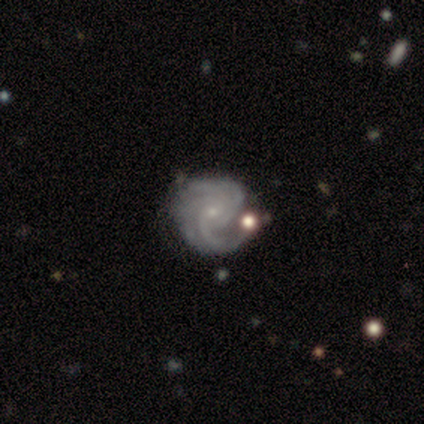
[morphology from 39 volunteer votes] Smooth or featured? featured or disk (87%)
Edge-on disk? no (100%)
Bar? no (71%)
Spiral arms? yes (100%)
Spiral winding? medium (56%)
Spiral arm count? 4 (26%)
Bulge size? small (82%)
Merging? none (54%)